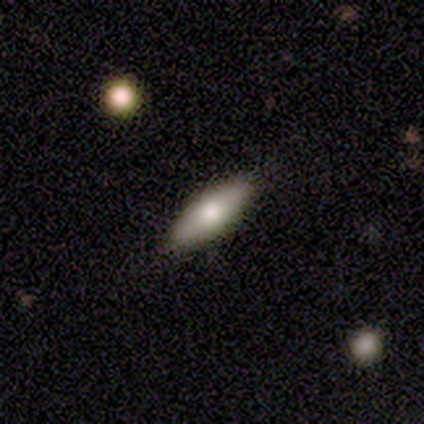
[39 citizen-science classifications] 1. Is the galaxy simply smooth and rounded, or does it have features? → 67% smooth, 26% featured or disk, 8% star or artifact.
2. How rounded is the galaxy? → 69% in between, 31% cigar-shaped, 0% round.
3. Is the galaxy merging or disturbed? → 83% none, 14% minor disturbance, 3% major disturbance, 0% merger.